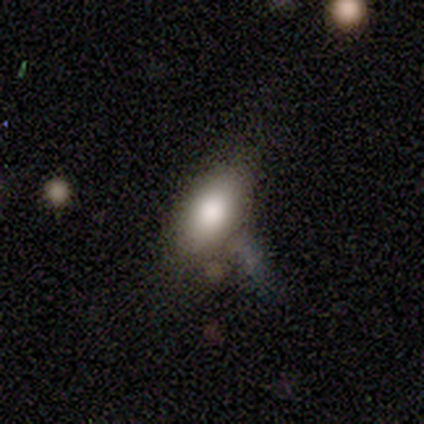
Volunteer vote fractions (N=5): Volunteers were most divided on "merging": none: 60%, minor disturbance: 20%, merger: 20%, major disturbance: 0%. More confident: smooth or featured — smooth (100%); how rounded — in between (100%).